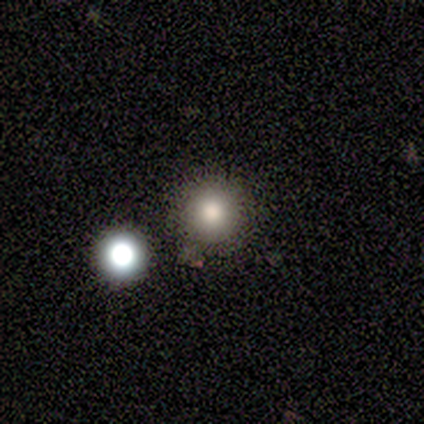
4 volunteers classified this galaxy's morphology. smooth 100%, featured or disk 0%, star or artifact 0%. Down the decision tree: how rounded — round (100%); merging — none (100%).